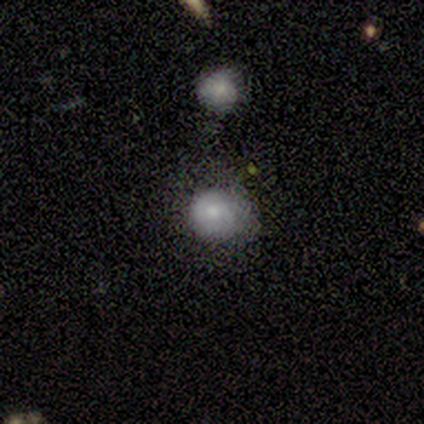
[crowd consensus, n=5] Smooth or featured: smooth — 100%
How rounded: round — 80% (in between — 20%)
Merging: minor disturbance — 60% (none — 40%)